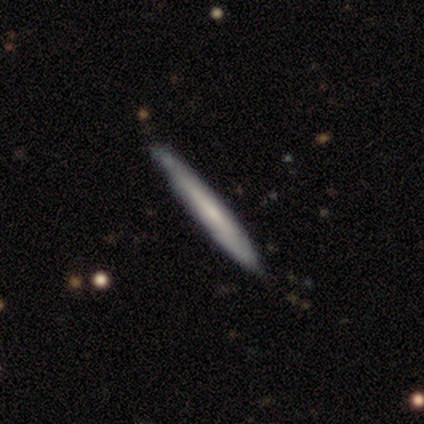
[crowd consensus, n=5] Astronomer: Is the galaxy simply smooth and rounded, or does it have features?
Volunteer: featured or disk — 60% (runner-up: smooth, 40%).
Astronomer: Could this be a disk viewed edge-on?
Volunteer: yes — 67%.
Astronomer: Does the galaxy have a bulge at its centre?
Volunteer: none — 100%.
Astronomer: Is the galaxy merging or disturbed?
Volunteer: none — 100%.